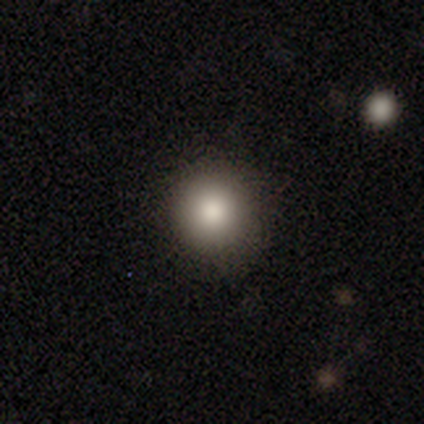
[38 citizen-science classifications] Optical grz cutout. It shows a smooth galaxy with no disk features (63%) that is round (92%). Merging: none (87%).